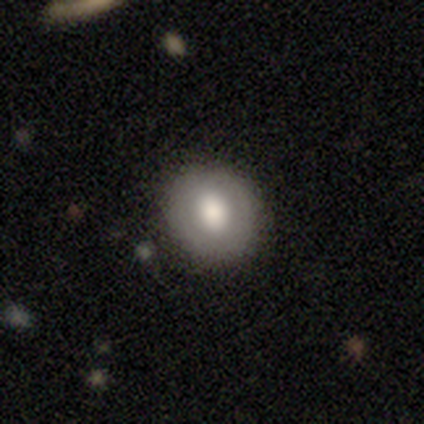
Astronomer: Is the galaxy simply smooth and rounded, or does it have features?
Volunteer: smooth — 75%.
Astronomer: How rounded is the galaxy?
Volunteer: round — 100%.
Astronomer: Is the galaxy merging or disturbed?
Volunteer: none — 100%.